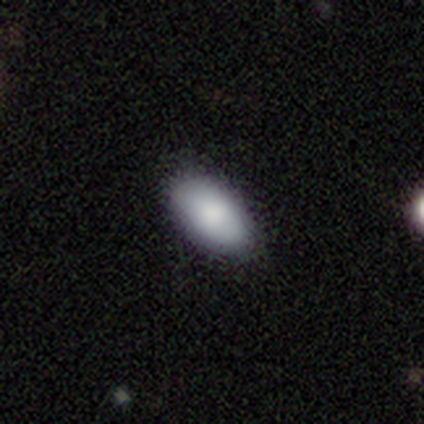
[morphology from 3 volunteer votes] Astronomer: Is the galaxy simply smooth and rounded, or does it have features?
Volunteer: smooth — 100%.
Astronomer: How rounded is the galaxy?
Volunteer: in between — 100%.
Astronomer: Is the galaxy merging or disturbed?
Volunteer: none — 100%.